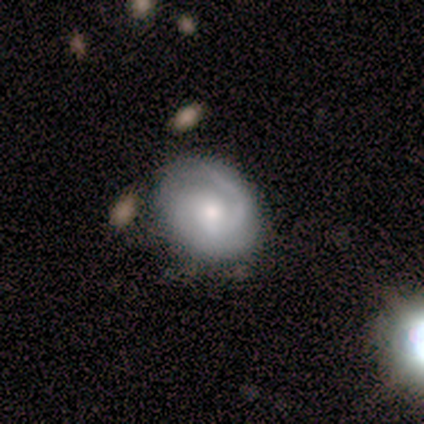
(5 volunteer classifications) smooth-or-featured: featured or disk: 100% | smooth: 0% | star or artifact: 0%
  disk-edge-on: no: 100% | yes: 0%
    bar: no: 80% | strong: 20% | weak: 0%
    has-spiral-arms: yes: 100% | no: 0%
      spiral-winding: tight: 80% | medium: 20% | loose: 0%
      spiral-arm-count: 2: 80% | 1: 20% | 3: 0% | 4: 0% | more than 4: 0% | can't tell: 0%
    bulge-size: moderate: 60% | small: 40% | dominant: 0% | large: 0% | none: 0%
  merging: none: 80% | minor disturbance: 20% | major disturbance: 0% | merger: 0%